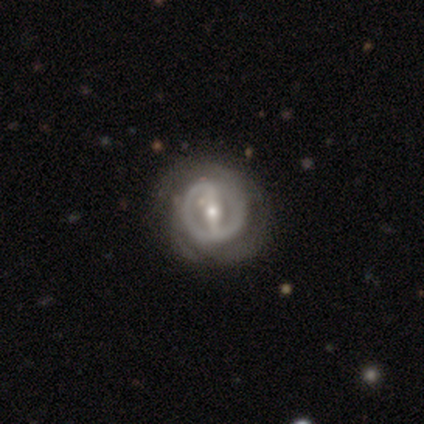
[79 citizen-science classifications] Smooth or featured: featured or disk — 91% (smooth — 8%)
Edge-on disk: no — 96% (yes — 4%)
Bar: strong — 75% (weak — 19%)
Spiral arms: yes — 68% (no — 32%)
Spiral winding: tight — 55% (medium — 34%)
Spiral arm count: 2 — 47% (can't tell — 34%)
Bulge size: moderate — 52% (small — 39%)
Merging: none — 49% (minor disturbance — 8%)